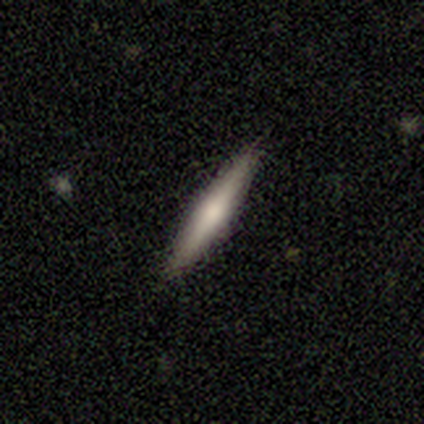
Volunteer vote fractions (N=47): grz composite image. It shows a featured or disk galaxy (70%) viewed edge-on (94%) with a rounded central bulge (74%). Merging: none (91%).